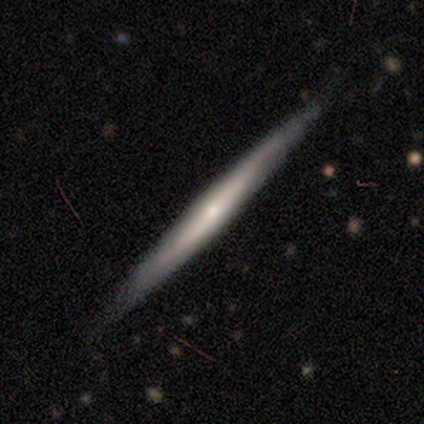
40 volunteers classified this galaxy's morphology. smooth-or-featured: featured or disk: 72% | smooth: 22% | star or artifact: 5%
  disk-edge-on: yes: 100% | no: 0%
    edge-on-bulge: none: 52% | rounded: 45% | boxy: 3%
  merging: none: 97% | minor disturbance: 3% | major disturbance: 0% | merger: 0%